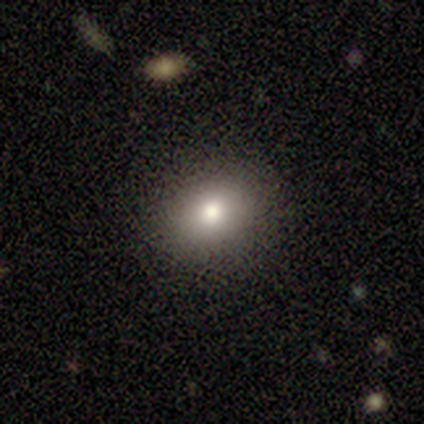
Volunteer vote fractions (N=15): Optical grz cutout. It shows a smooth galaxy with no disk features (80%) that is round (58%). Merging: none (93%).